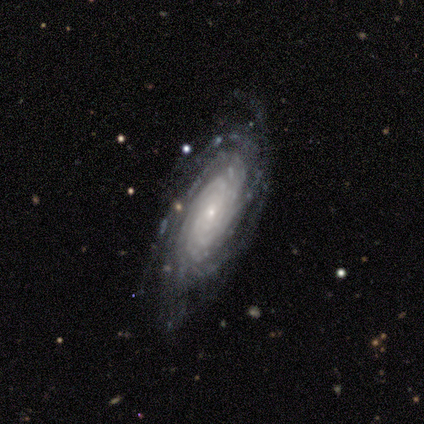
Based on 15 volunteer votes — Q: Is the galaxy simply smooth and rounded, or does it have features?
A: featured or disk — 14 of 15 (93%).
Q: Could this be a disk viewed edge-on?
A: no — 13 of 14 (93%).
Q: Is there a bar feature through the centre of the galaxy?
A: no — 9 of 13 (69%).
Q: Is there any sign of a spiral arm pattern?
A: yes — 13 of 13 (100%).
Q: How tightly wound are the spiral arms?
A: tight — 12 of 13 (92%).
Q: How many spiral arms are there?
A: more than 4 — 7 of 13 (54%).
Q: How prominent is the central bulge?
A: small — 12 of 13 (92%).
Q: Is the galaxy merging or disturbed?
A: none — 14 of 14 (100%).